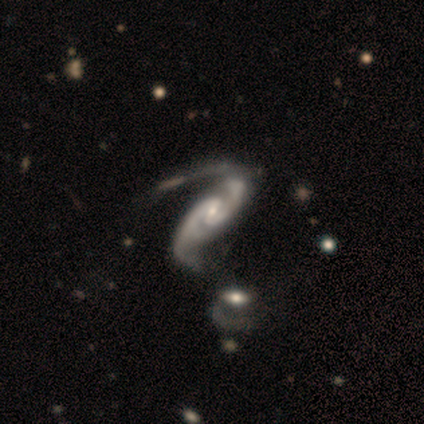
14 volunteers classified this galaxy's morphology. Smooth or featured: featured or disk — 100%
Edge-on disk: no — 100%
Bar: weak — 57% (no — 29%)
Spiral arms: yes — 100%
Spiral winding: medium — 57% (loose — 29%)
Spiral arm count: 2 — 93% (3 — 7%)
Bulge size: small — 93% (moderate — 7%)
Merging: major disturbance — 57% (minor disturbance — 21%)